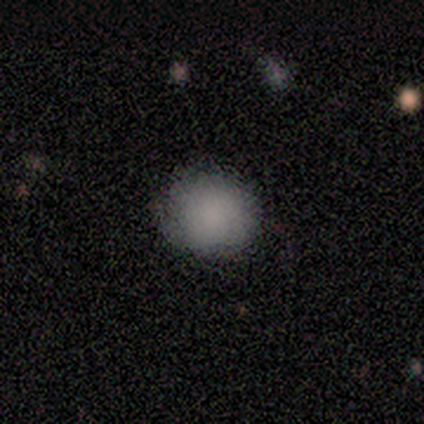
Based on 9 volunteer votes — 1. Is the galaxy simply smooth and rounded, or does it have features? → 100% smooth, 0% featured or disk, 0% star or artifact.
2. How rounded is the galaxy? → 89% round, 11% in between, 0% cigar-shaped.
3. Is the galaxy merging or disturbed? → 67% none, 33% minor disturbance, 0% major disturbance, 0% merger.